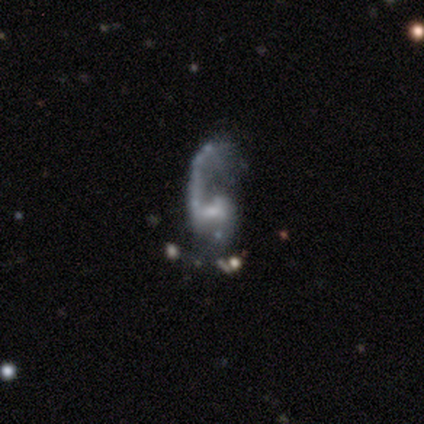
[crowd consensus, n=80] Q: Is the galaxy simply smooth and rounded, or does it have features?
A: featured or disk — 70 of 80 (88%).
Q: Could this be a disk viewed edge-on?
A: no — 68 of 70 (97%).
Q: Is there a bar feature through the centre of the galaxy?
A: weak — 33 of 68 (49%).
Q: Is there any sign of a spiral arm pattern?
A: yes — 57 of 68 (84%).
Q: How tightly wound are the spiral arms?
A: loose — 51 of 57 (89%).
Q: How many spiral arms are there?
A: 1 — 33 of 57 (58%).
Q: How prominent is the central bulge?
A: small — 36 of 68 (53%).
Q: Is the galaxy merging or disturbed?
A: major disturbance — 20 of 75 (27%).